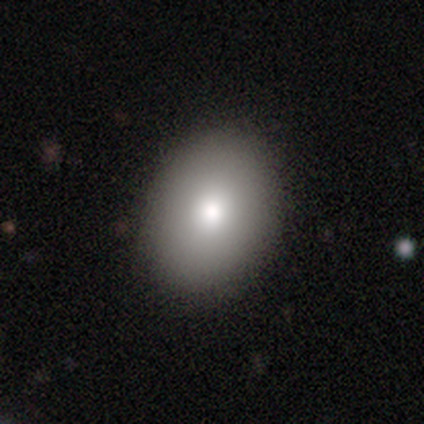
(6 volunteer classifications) Smooth or featured: smooth — 83% (featured or disk — 17%)
How rounded: in between — 80% (round — 20%)
Merging: none — 83% (minor disturbance — 17%)